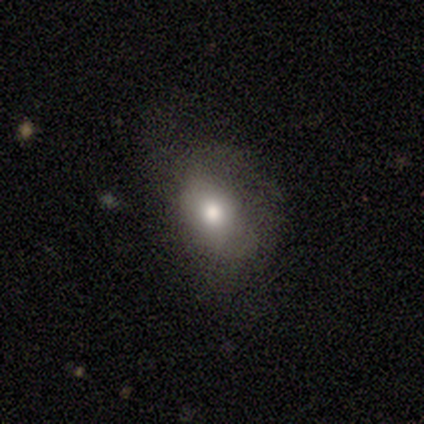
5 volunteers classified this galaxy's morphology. Smooth or featured?
  - smooth: 40% * (tied)
  - star or artifact: 40% * (tied)
  - featured or disk: 20%
How rounded?
  - round: 50% * (tied)
  - in between: 50% * (tied)
  - cigar-shaped: 0%
Merging?
  - none: 67% *
  - minor disturbance: 33%
  - major disturbance: 0%
  - merger: 0%